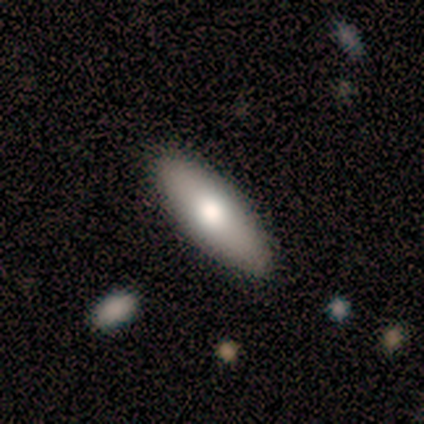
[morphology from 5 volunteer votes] This appears to be a smooth galaxy with no disk features (60%) that is in between round and cigar-shaped (67%). Merging: none (100%).